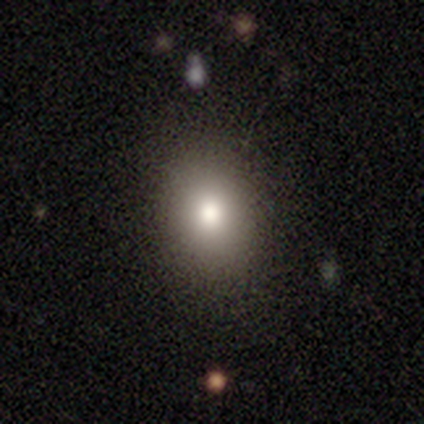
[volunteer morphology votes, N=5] Q: Smooth or featured?
A: featured or disk (60%); runner-up: smooth (40%)
Q: Edge-on disk?
A: no (100%)
Q: Bar?
A: no (67%); runner-up: weak (33%)
Q: Spiral arms?
A: no (100%)
Q: Bulge size?
A: moderate (67%); runner-up: small (33%)
Q: Merging?
A: none (80%); runner-up: major disturbance (20%)